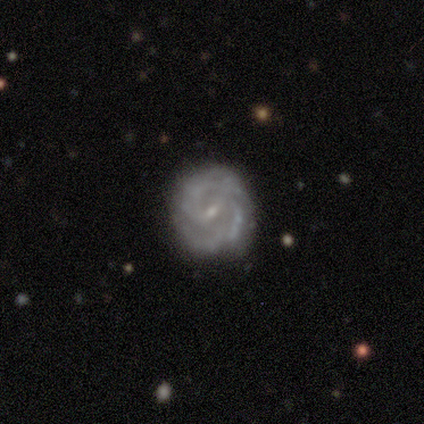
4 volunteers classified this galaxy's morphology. Overall: featured or disk (50%; smooth 25%). Edge-on disk: no (100%). Bar: weak (50%, tied with no). Spiral arms: yes (100%). Spiral arm count: 2 (50%, tied with more than 4). Spiral winding: tight (50%, tied with medium). Bulge size: dominant (50%, tied with small). Merging: none (100%).